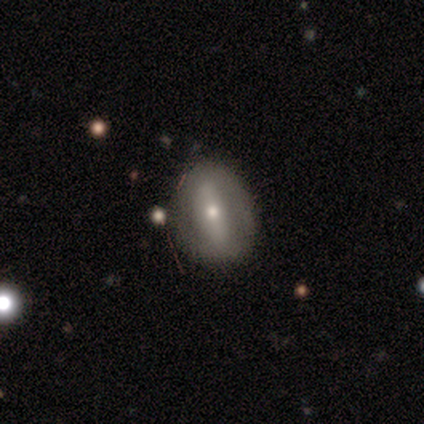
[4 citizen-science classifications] This is possibly a featured or disk galaxy (50%). It is possibly viewed edge-on (50%, tied with no). Edge-on bulge: clearly rounded (100%). Merging: likely none (67%).